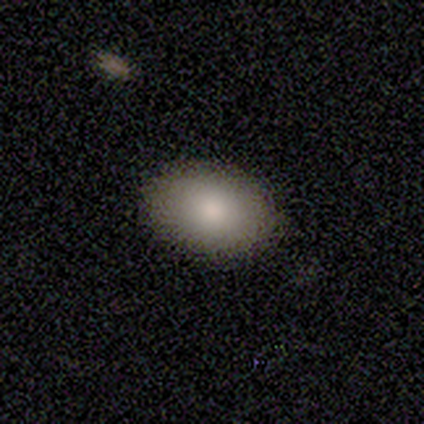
smooth-or-featured: smooth: 92% | featured or disk: 8% | star or artifact: 0%
  how-rounded: in between: 91% | round: 9% | cigar-shaped: 0%
  merging: none: 51% | merger: 8% | minor disturbance: 0% | major disturbance: 0%